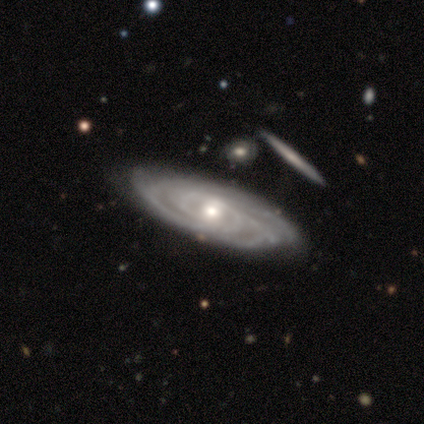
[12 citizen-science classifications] Overall: featured or disk (92%). Edge-on disk: no (82%). Bar: no (56%; weak 44%). Spiral arms: yes (100%). Spiral arm count: can't tell (44%; 4 33%). Spiral winding: tight (78%). Bulge size: moderate (89%). Merging: none (64%; minor disturbance 27%).